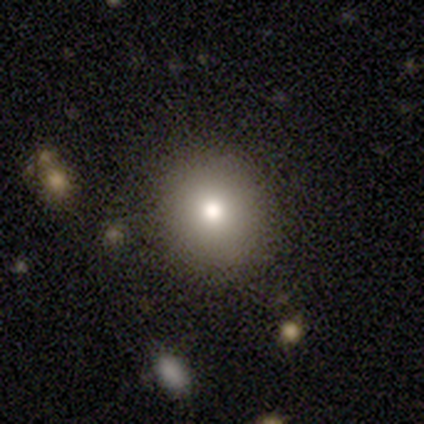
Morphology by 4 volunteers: Smooth or featured? smooth (75%)
How rounded? round (100%)
Merging? none (67%)